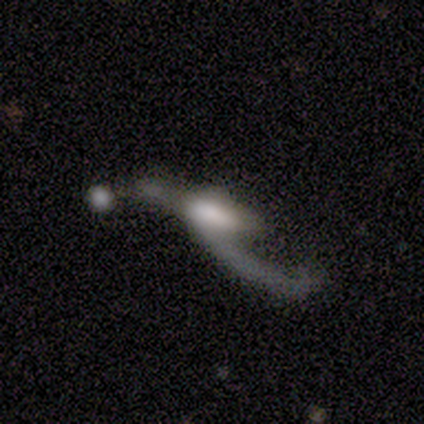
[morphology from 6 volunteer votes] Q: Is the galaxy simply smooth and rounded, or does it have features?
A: featured or disk — 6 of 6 (100%).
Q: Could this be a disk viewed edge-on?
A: no — 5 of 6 (83%).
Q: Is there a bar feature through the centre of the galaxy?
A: no — 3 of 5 (60%).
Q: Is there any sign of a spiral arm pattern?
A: yes — 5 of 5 (100%).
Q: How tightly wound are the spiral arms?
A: loose — 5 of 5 (100%).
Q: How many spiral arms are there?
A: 2 — 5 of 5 (100%).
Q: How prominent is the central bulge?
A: moderate — 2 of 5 (40%).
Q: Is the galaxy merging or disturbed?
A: major disturbance — 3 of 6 (50%).